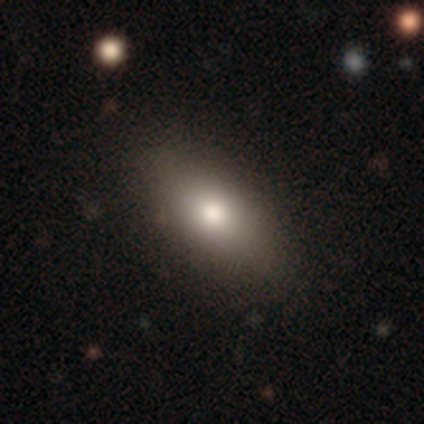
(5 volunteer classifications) A smooth galaxy with no disk features (40%, tied with star or artifact) that is in between round and cigar-shaped (100%). Merging: none (100%).